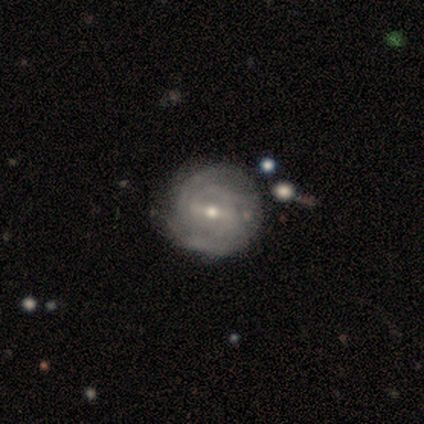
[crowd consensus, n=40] This appears to be a featured or disk galaxy (80%) with a weak bar (50%), tight (58%) spiral arms (87%) and a small central bulge (50%). Merging: none (65%).